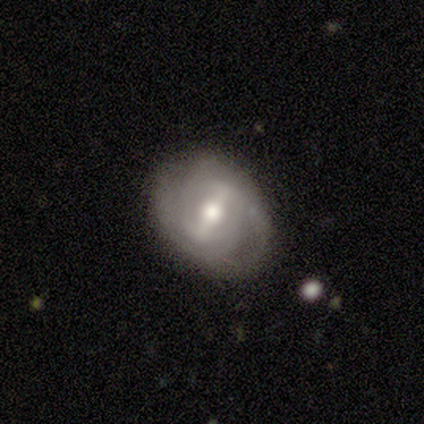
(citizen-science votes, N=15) Smooth or featured? 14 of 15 (93%) said featured or disk. Edge-on disk? 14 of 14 (100%) said no. Bar? 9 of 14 (64%) said strong. Spiral arms? 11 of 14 (79%) said yes. Spiral winding? 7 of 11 (64%) said tight. Spiral arm count? 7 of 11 (64%) said 2. Bulge size? 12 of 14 (86%) said moderate. Merging? 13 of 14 (93%) said none.